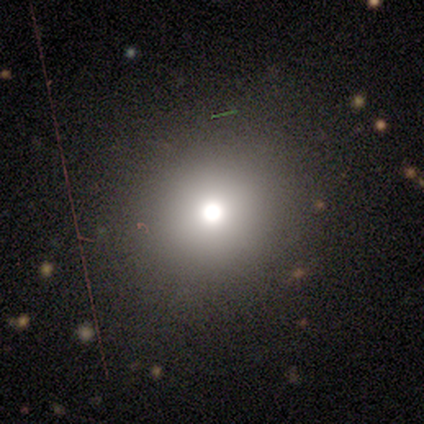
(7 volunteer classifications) This appears to be a smooth galaxy with no disk features (100%) that is round (100%). Merging: none (86%).